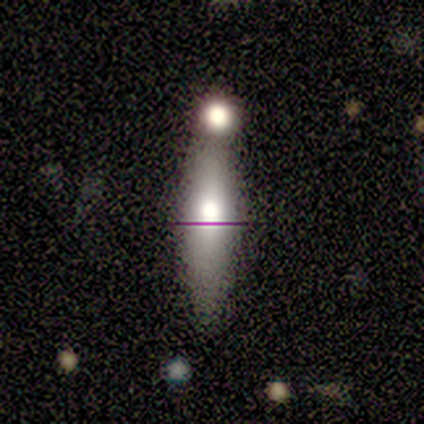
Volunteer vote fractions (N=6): Overall: featured or disk (67%; smooth 33%). Edge-on disk: yes (75%). Edge-on bulge: rounded (100%). Merging: merger (50%; none 33%).